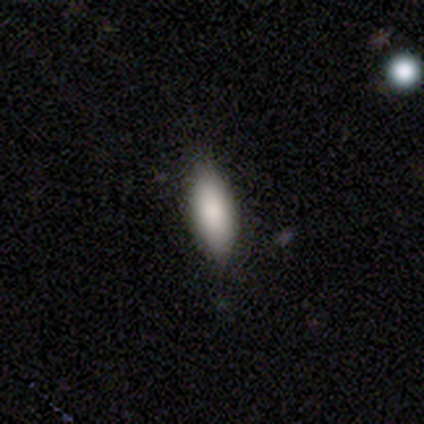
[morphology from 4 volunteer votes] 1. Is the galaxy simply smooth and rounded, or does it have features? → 100% smooth, 0% featured or disk, 0% star or artifact.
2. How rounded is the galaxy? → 100% in between, 0% round, 0% cigar-shaped.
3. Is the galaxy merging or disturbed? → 75% none, 25% minor disturbance, 0% major disturbance, 0% merger.